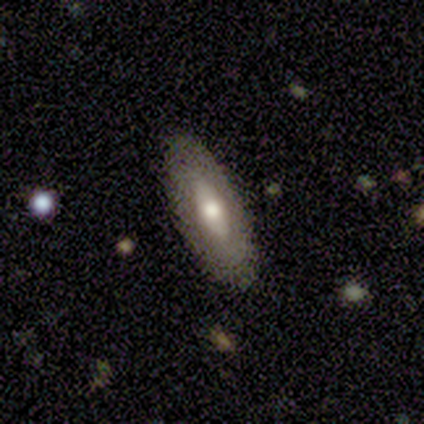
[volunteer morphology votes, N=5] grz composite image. It shows a featured or disk galaxy (80%) viewed edge-on (50%, tied with no) with a rounded central bulge (100%). Merging: none (100%).